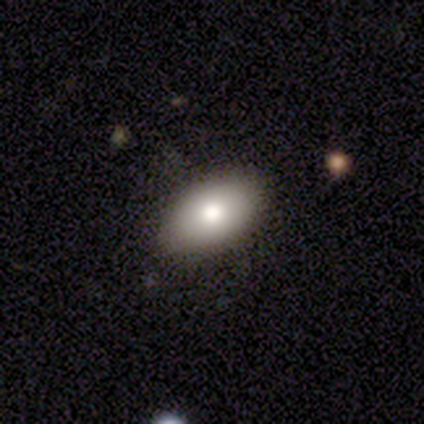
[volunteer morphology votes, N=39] Smooth or featured? 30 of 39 (77%) said smooth. How rounded? 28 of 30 (93%) said in between. Merging? 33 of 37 (89%) said none.